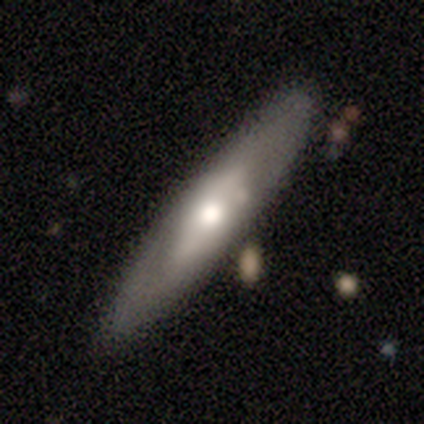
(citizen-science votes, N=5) smooth_or_featured: featured or disk (p=0.60) [alt: smooth p=0.40]
disk_edge_on: no (p=0.67) [alt: yes p=0.33]
bar: no (p=1.00)
has_spiral_arms: no (p=1.00)
bulge_size: moderate (p=1.00)
merging: none (p=0.80) [alt: minor disturbance p=0.20]